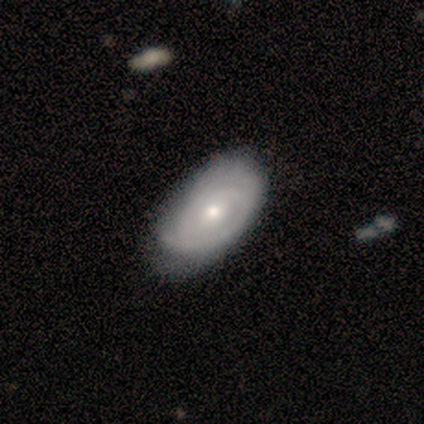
Smooth or featured? featured or disk (60%)
Edge-on disk? no (100%)
Bar? no (100%)
Spiral arms? yes (100%)
Spiral winding? tight (67%)
Spiral arm count? 3 (67%)
Bulge size? moderate (67%)
Merging? none (60%)